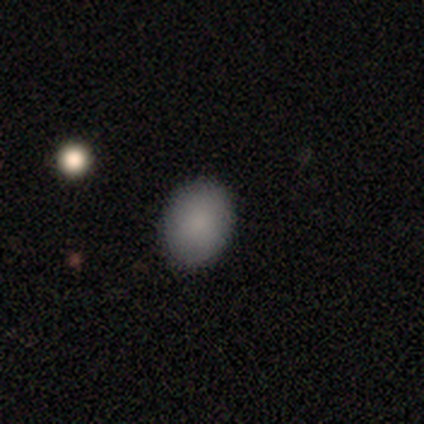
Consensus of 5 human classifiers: smooth 100%, featured or disk 0%, star or artifact 0%. Down the decision tree: how rounded — round (60%); merging — none (80%).